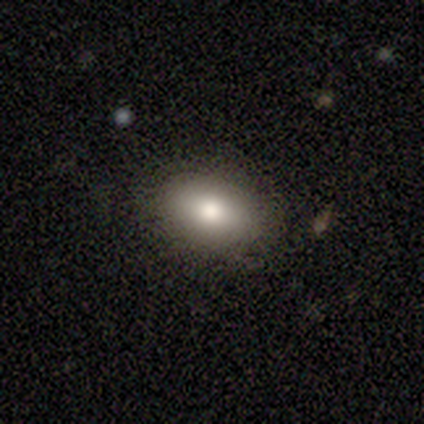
Morphology: type=smooth (91%); roundness=in between (70%); merging=none (82%).